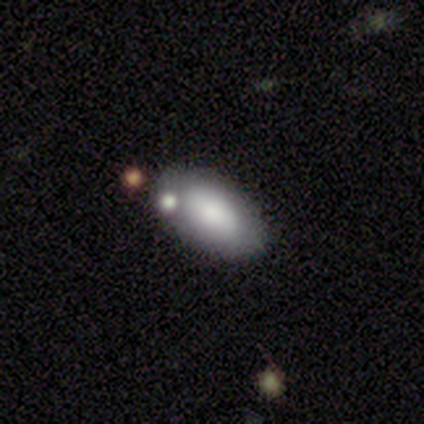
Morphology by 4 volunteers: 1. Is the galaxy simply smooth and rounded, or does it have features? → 75% smooth, 25% featured or disk, 0% star or artifact.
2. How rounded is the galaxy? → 100% in between, 0% round, 0% cigar-shaped.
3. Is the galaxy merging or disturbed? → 75% none, 25% minor disturbance, 0% major disturbance, 0% merger.